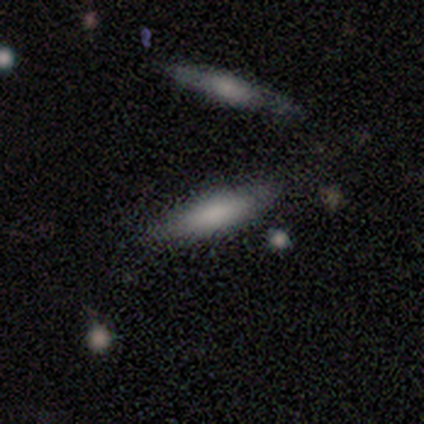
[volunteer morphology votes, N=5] Smooth or featured? smooth (40%, tied with featured or disk)
How rounded? in between (50%, tied with cigar-shaped)
Merging? none (100%)